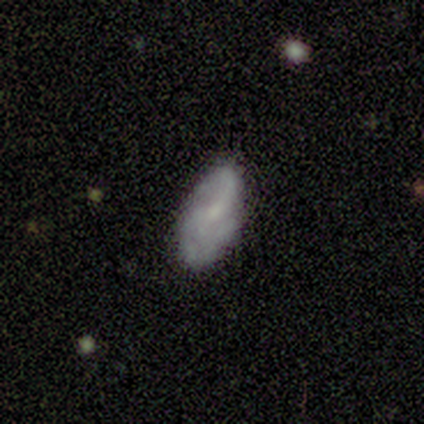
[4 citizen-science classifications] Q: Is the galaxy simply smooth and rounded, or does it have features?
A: smooth — 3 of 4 (75%).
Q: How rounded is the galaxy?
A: in between — 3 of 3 (100%).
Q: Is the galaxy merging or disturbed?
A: none — 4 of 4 (100%).